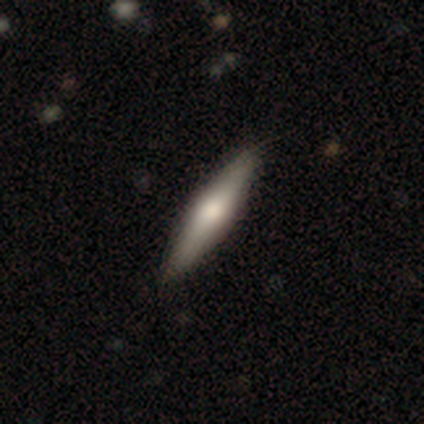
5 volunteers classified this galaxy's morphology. Smooth or featured: smooth — 60% (featured or disk — 40%)
How rounded: cigar-shaped — 100%
Merging: none — 80% (minor disturbance — 20%)